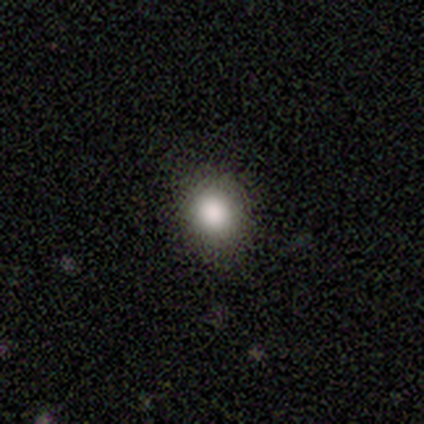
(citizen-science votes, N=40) A smooth galaxy with no disk features (80%) that is round (59%). Merging: none (83%).